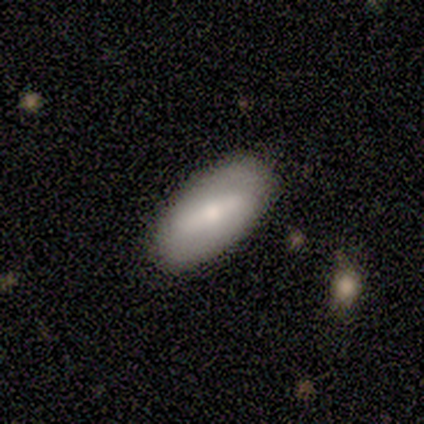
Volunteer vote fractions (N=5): smooth-or-featured: smooth: 80% | star or artifact: 20% | featured or disk: 0%
  how-rounded: in between: 100% | round: 0% | cigar-shaped: 0%
  merging: none: 100% | minor disturbance: 0% | major disturbance: 0% | merger: 0%